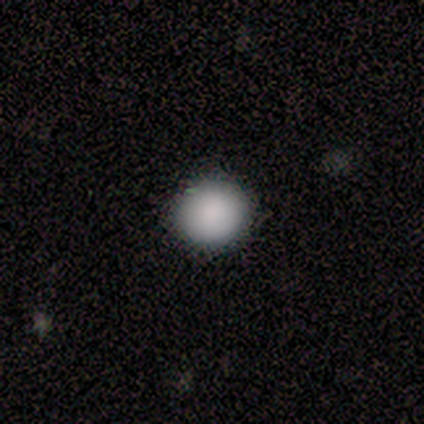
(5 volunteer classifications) Q: Smooth or featured?
A: smooth (80%); runner-up: star or artifact (20%)
Q: How rounded?
A: round (75%); runner-up: in between (25%)
Q: Merging?
A: none (100%)